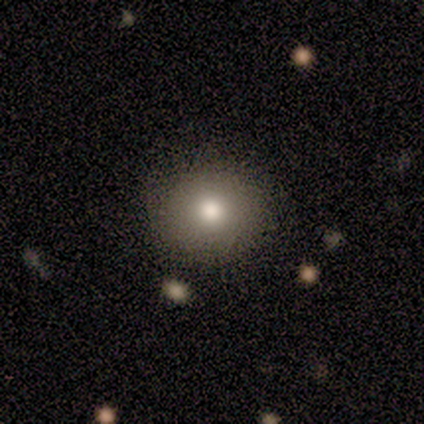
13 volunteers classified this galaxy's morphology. Smooth or featured?
  - smooth: 62% *
  - star or artifact: 31%
  - featured or disk: 8%
How rounded?
  - round: 100% *
  - in between: 0%
  - cigar-shaped: 0%
Merging?
  - none: 89% *
  - minor disturbance: 11%
  - major disturbance: 0%
  - merger: 0%